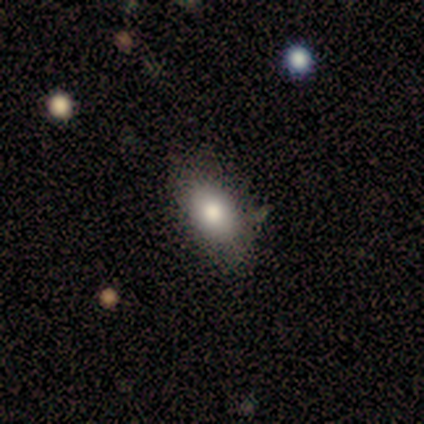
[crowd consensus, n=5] smooth-or-featured: smooth: 60% | featured or disk: 40% | star or artifact: 0%
  how-rounded: in between: 67% | cigar-shaped: 33% | round: 0%
  merging: none: 60% | minor disturbance: 20% | major disturbance: 20% | merger: 0%